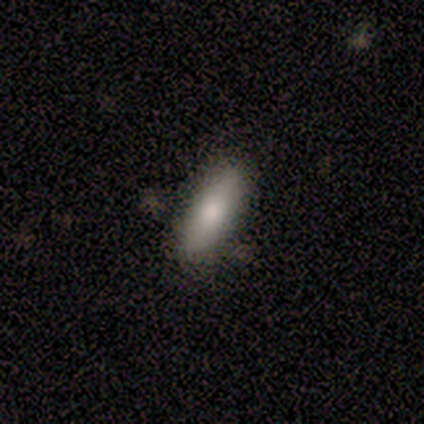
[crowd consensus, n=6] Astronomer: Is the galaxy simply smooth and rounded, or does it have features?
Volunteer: smooth — 83%.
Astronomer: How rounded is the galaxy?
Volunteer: cigar-shaped — 60% (runner-up: in between, 40%).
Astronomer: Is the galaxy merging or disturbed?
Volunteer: none — 83%.